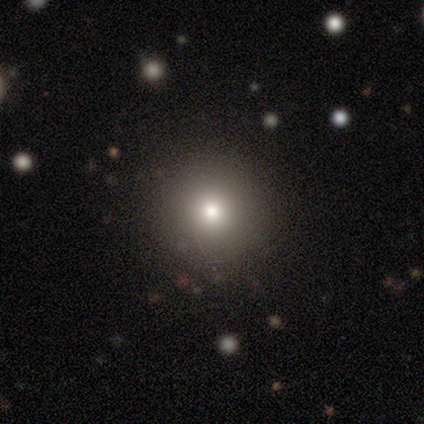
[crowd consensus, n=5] This appears to be a smooth galaxy with no disk features (80%) that is round (100%). Merging: none (100%).